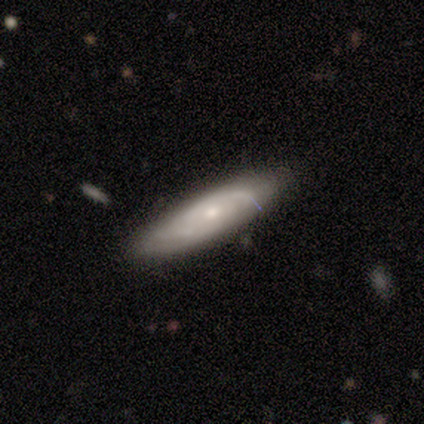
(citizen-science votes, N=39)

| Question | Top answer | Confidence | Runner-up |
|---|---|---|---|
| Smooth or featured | featured or disk | 67% | smooth (28%) |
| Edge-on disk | no | 69% | yes (31%) |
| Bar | no | 83% | weak (17%) |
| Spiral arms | yes | 72% | no (28%) |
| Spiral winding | tight | 46% | tied: medium (46%) |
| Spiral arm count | can't tell | 62% | 2 (31%) |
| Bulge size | moderate | 56% | small (33%) |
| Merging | none | 68% | minor disturbance (24%) |